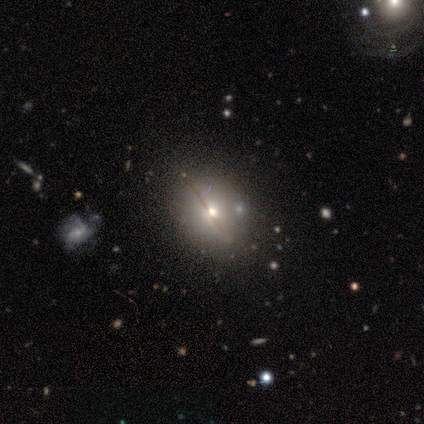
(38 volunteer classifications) A smooth galaxy with no disk features (50%) that is in between round and cigar-shaped (53%). Merging: none (84%).